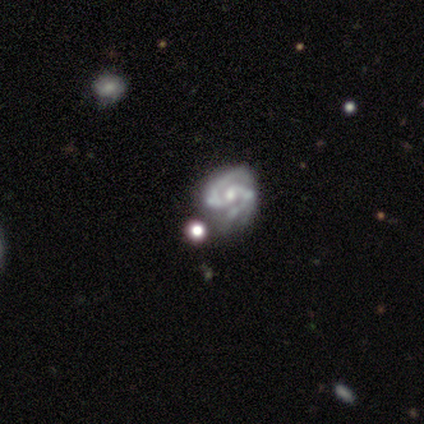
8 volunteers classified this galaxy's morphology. Q: Smooth or featured?
A: featured or disk (100%)
Q: Edge-on disk?
A: no (88%); runner-up: yes (12%)
Q: Bar?
A: no (71%); runner-up: weak (29%)
Q: Spiral arms?
A: yes (71%); runner-up: no (29%)
Q: Spiral winding?
A: medium (80%); runner-up: tight (20%)
Q: Spiral arm count?
A: 2 (100%)
Q: Bulge size?
A: small (71%); runner-up: moderate (29%)
Q: Merging?
A: major disturbance (50%); runner-up: none (25%)